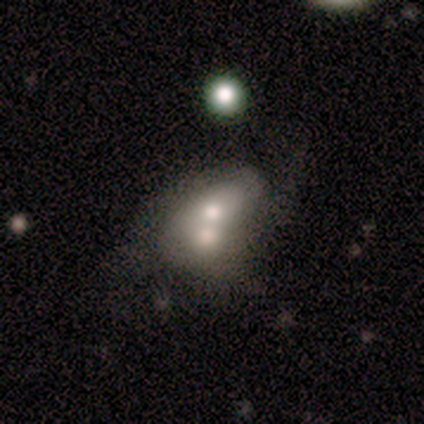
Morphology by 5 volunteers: A featured or disk galaxy (60%) with no bar (67%), 3 (50%, tied with can't tell) medium (50%, tied with loose) spiral arms (67%) and a small central bulge (67%).

Vote fractions:
- Smooth or featured? featured or disk: 60% / smooth: 40% / star or artifact: 0%
- Edge-on disk? no: 100% / yes: 0%
- Bar? no: 67% / weak: 33% / strong: 0%
- Spiral arms? yes: 67% / no: 33%
- Spiral winding? medium: 50% (tied) / loose: 50% (tied) / tight: 0%
- Spiral arm count? 3: 50% (tied) / can't tell: 50% (tied) / 1: 0% / 2: 0% / 4: 0% / more than 4: 0%
- Bulge size? small: 67% / large: 33% / dominant: 0% / moderate: 0% / none: 0%
- Merging? merger: 60% / minor disturbance: 20% / major disturbance: 20% / none: 0%